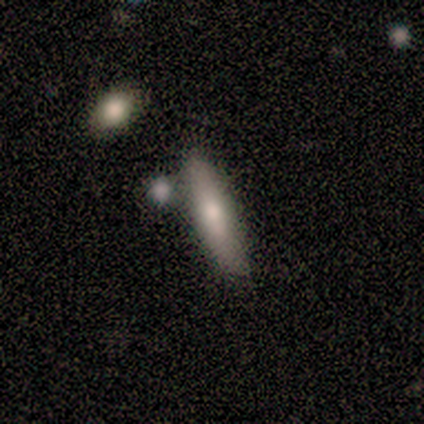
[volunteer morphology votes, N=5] Overall: smooth (60%; featured or disk 40%). How rounded: cigar-shaped (100%). Merging: none (40%, tied with minor disturbance).